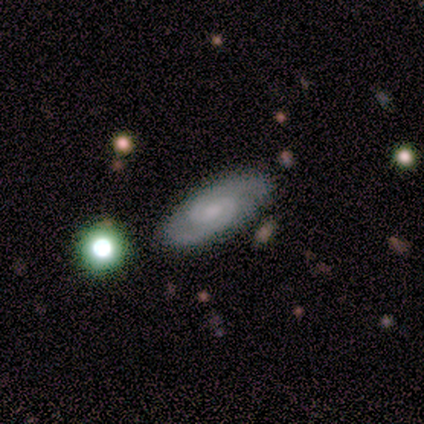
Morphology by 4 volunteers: type=featured or disk (75%); edge-on=no (100%); bar=no (67%); spiral arms=yes (100%); winding=medium (67%); arm count=2 (67%); bulge=moderate (67%); merging=none (100%).